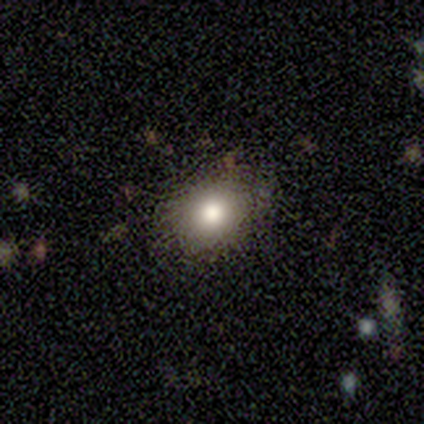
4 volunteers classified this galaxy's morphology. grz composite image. It shows a smooth galaxy with no disk features (75%) that is round (100%). Merging: none (100%).